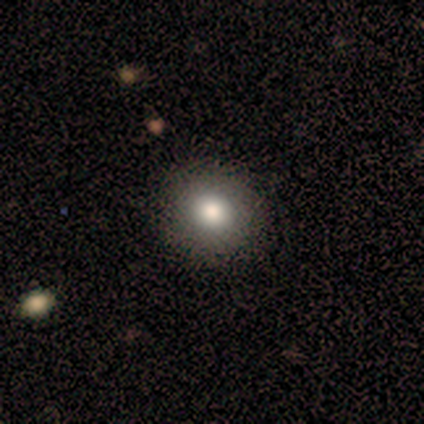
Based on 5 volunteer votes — smooth_or_featured: smooth (p=0.80) [alt: featured or disk p=0.20]
how_rounded: round (p=0.75) [alt: in between p=0.25]
merging: none (p=1.00)